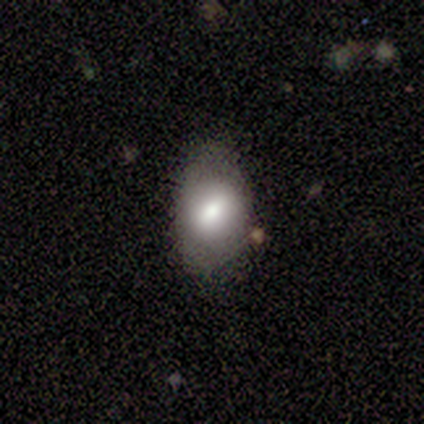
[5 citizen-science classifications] This is likely a featured or disk galaxy (60%). It is clearly not viewed edge-on (100%). Bar: likely weak (67%). Spiral arm pattern: clearly no (100%). Central bulge: marginally large (33%, tied with moderate and small). Merging: clearly none (80%).